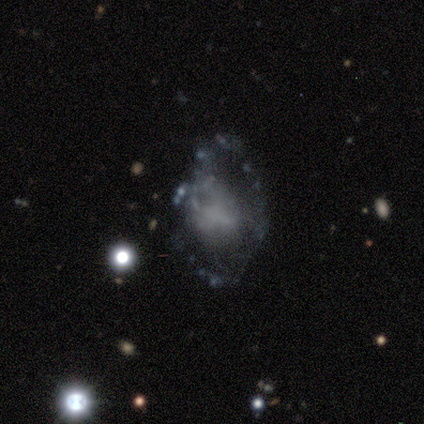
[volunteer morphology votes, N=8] This appears to be a featured or disk galaxy (38%, tied with star or artifact) with no bar (67%), no spiral arms (67%) and a large central bulge (33%, tied with moderate and none). Merging: none (40%, tied with minor disturbance).